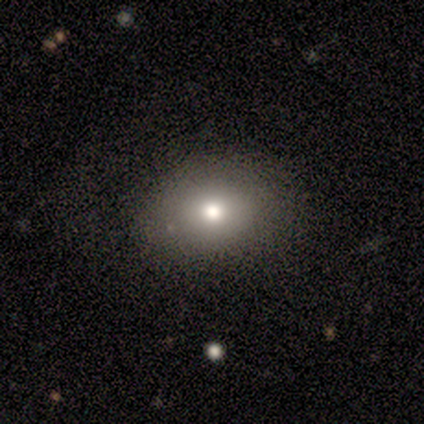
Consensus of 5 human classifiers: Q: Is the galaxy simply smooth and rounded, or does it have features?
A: smooth — 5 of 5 (100%).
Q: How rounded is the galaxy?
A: in between — 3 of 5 (60%).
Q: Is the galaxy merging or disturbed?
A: none — 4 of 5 (80%).